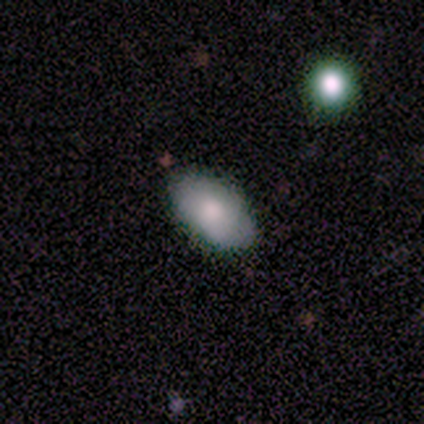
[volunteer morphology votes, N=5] This is marginally a smooth galaxy (40%, tied with featured or disk). How rounded: possibly round (50%, tied with in between). Merging: likely none (75%).